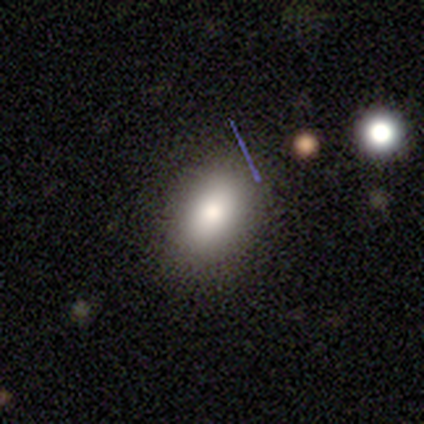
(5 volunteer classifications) Smooth or featured? 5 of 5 (100%) said smooth. How rounded? 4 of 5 (80%) said in between. Merging? 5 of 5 (100%) said none.